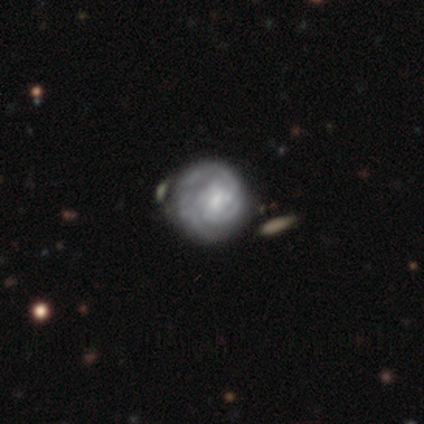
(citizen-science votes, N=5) A featured or disk galaxy (60%) with a weak bar (67%), 3 (50%, tied with can't tell) tight (100%) spiral arms (67%) and a small central bulge (100%). Merging: none (60%).